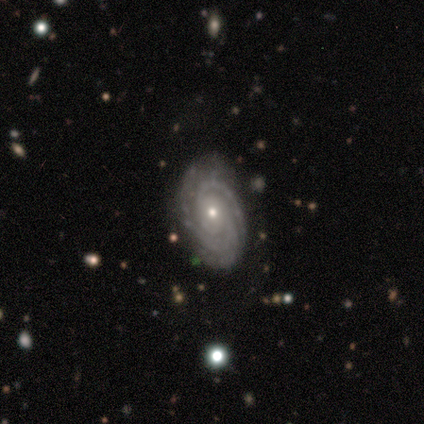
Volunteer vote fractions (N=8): Smooth or featured: featured or disk — 100%
Edge-on disk: no — 88% (yes — 12%)
Bar: no — 71% (strong — 14%)
Spiral arms: yes — 100%
Spiral winding: tight — 86% (medium — 14%)
Spiral arm count: 3 — 57% (2 — 29%)
Bulge size: small — 86% (moderate — 14%)
Merging: none — 62% (major disturbance — 25%)